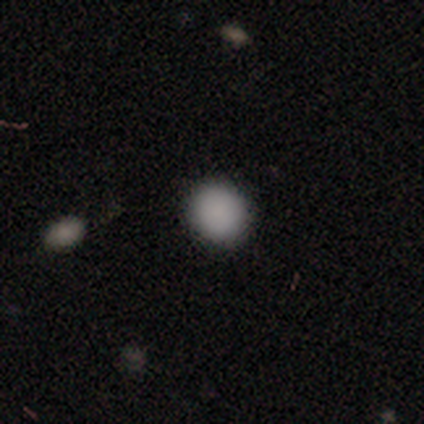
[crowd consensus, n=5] This is clearly a smooth galaxy (100%). How rounded: clearly round (100%). Merging: clearly none (100%).